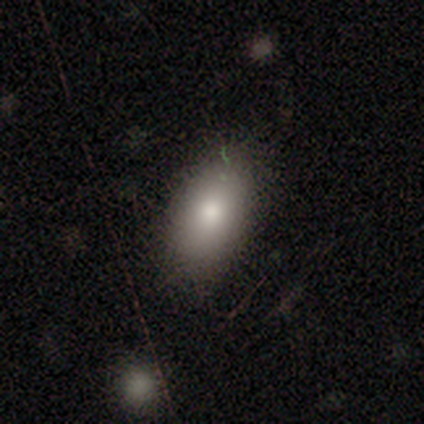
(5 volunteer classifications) A smooth galaxy with no disk features (100%) that is in between round and cigar-shaped (80%). Merging: none (80%).